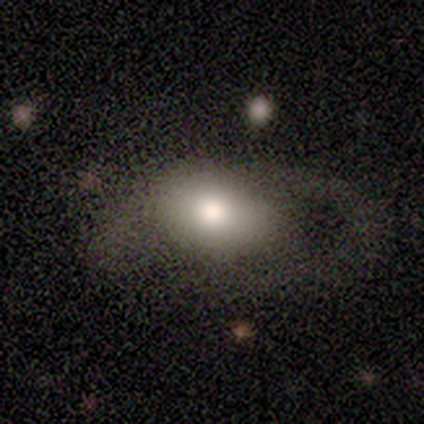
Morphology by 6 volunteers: Q: Smooth or featured?
A: smooth (67%); runner-up: featured or disk (17%)
Q: How rounded?
A: in between (100%)
Q: Merging?
A: none (40%); tied with: major disturbance (40%)